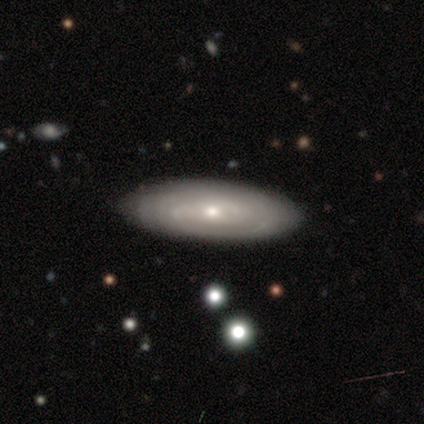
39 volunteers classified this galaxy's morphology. featured or disk 72%, smooth 26%, star or artifact 3%. Down the decision tree: edge-on disk — no (86%); bar — no (83%); spiral arms — yes (88%); spiral arm count — can't tell (76%); spiral winding — tight (67%); bulge size — small (71%); merging — none (95%).